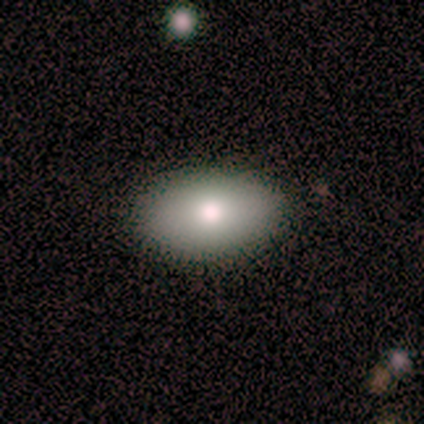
Volunteers were most divided on "smooth or featured": smooth: 82%, featured or disk: 18%, star or artifact: 0%. More confident: how rounded — in between (100%); merging — none (91%).